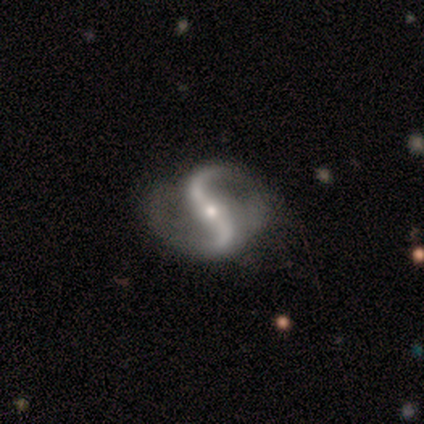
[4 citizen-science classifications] Smooth or featured? featured or disk (100%)
Edge-on disk? no (100%)
Bar? strong (50%)
Spiral arms? yes (100%)
Spiral winding? loose (75%)
Spiral arm count? 2 (100%)
Bulge size? small (75%)
Merging? none (75%)